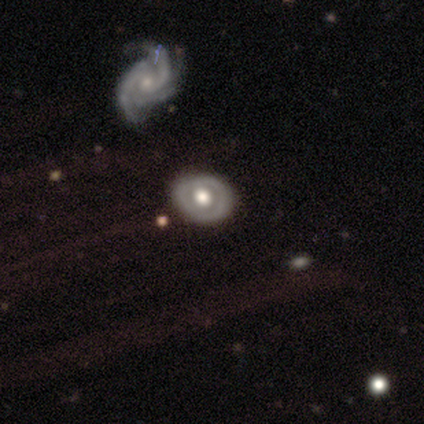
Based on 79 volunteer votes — Smooth or featured? 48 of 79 (61%) said featured or disk. Edge-on disk? 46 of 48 (96%) said no. Bar? 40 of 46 (87%) said no. Spiral arms? 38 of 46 (83%) said no. Bulge size? 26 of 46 (57%) said large. Merging? 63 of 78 (81%) said none.